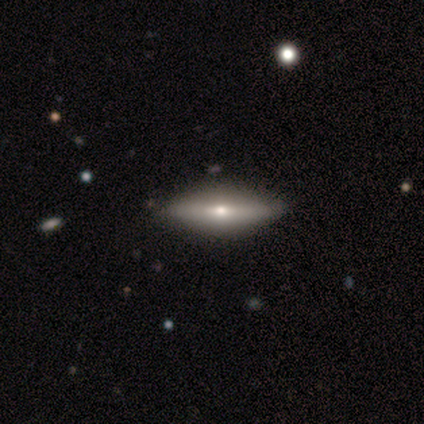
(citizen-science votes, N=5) Volunteers were most divided on "smooth or featured": smooth: 60%, featured or disk: 40%, star or artifact: 0%. More confident: how rounded — in between (100%); merging — none (100%).